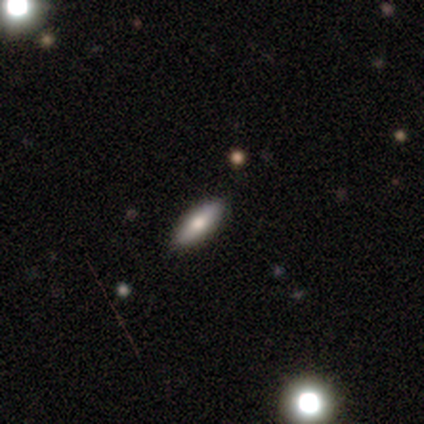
A smooth galaxy with no disk features (100%) that is in between round and cigar-shaped (60%).

Vote fractions:
- Smooth or featured? smooth: 100% / featured or disk: 0% / star or artifact: 0%
- How rounded? in between: 60% / cigar-shaped: 40% / round: 0%
- Merging? none: 100% / minor disturbance: 0% / major disturbance: 0% / merger: 0%